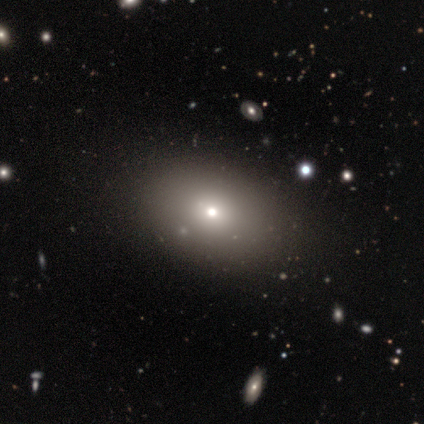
smooth_or_featured: smooth (p=0.91) [alt: featured or disk p=0.05]
how_rounded: in between (p=0.81) [alt: round p=0.19]
merging: none (p=0.46) [alt: minor disturbance p=0.04]